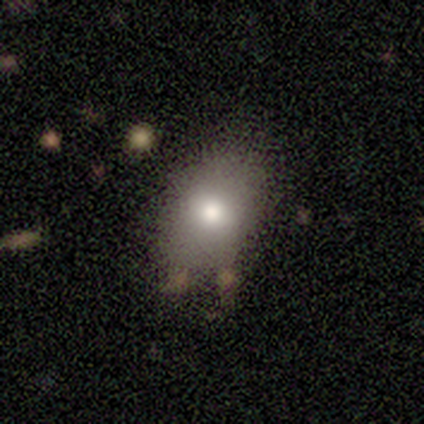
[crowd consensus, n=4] A smooth galaxy with no disk features (75%) that is in between round and cigar-shaped (67%).

Vote fractions:
- Smooth or featured? smooth: 75% / featured or disk: 25% / star or artifact: 0%
- How rounded? in between: 67% / round: 33% / cigar-shaped: 0%
- Merging? none: 75% / minor disturbance: 25% / major disturbance: 0% / merger: 0%